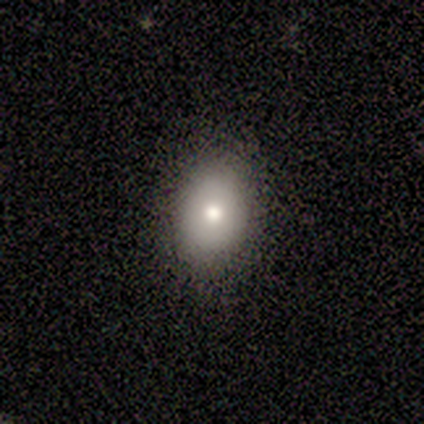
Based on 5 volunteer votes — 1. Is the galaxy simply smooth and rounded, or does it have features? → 60% smooth, 40% featured or disk, 0% star or artifact.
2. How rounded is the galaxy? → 67% in between, 33% round, 0% cigar-shaped.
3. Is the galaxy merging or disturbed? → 100% none, 0% minor disturbance, 0% major disturbance, 0% merger.